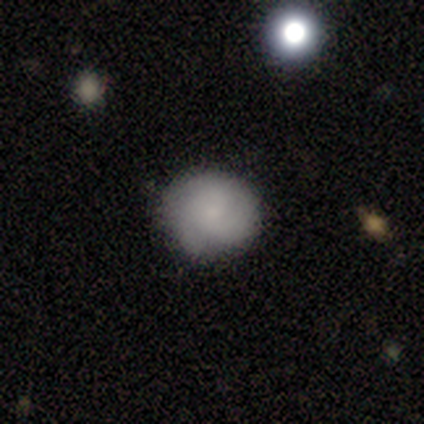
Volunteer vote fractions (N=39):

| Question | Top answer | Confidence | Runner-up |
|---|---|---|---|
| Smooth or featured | smooth | 64% | featured or disk (26%) |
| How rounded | round | 88% | in between (12%) |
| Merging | none | 80% | minor disturbance (17%) |